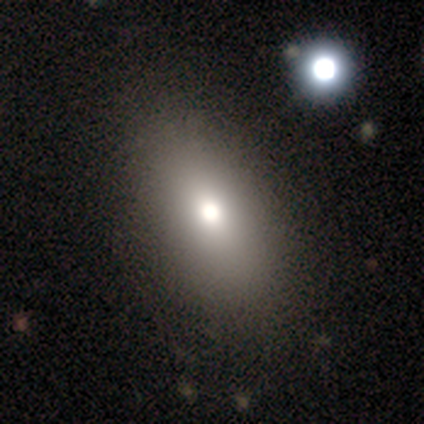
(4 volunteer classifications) Morphology: type=smooth (50%); roundness=in between (100%); merging=none (100%).